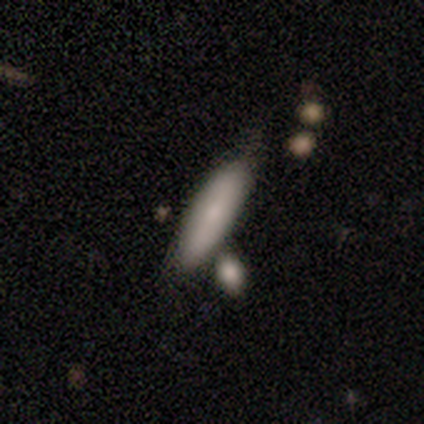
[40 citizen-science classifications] This is likely a smooth galaxy (78%). How rounded: likely cigar-shaped (77%). Merging: possibly none (58%).